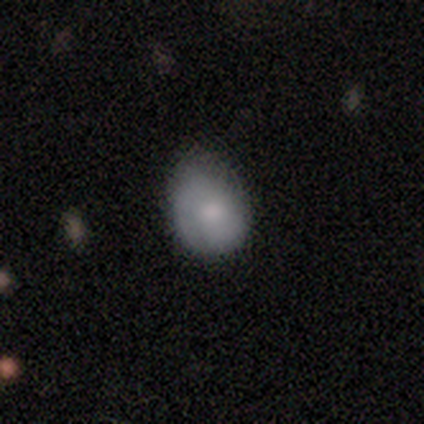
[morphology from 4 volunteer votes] Smooth or featured?
  - smooth: 75% *
  - featured or disk: 25%
  - star or artifact: 0%
How rounded?
  - in between: 67% *
  - round: 33%
  - cigar-shaped: 0%
Merging?
  - minor disturbance: 75% *
  - merger: 25%
  - none: 0%
  - major disturbance: 0%